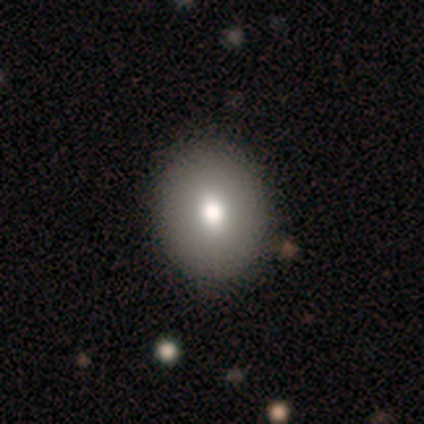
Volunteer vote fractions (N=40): smooth-or-featured: smooth: 78% | featured or disk: 20% | star or artifact: 2%
  how-rounded: round: 74% | in between: 26% | cigar-shaped: 0%
  merging: none: 56% | minor disturbance: 5% | merger: 5% | major disturbance: 0%